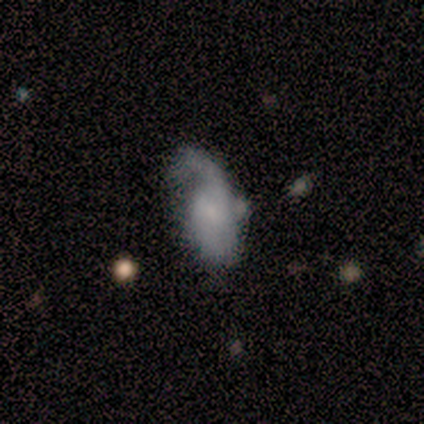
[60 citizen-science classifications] This is likely a featured or disk galaxy (65%). It is clearly not viewed edge-on (95%). Bar: possibly no (59%). Spiral arm pattern: clearly yes (86%). Spiral arm count: possibly 1 (59%). Spiral winding: possibly loose (56%). Central bulge: possibly small (49%). Merging: marginally minor disturbance (36%).